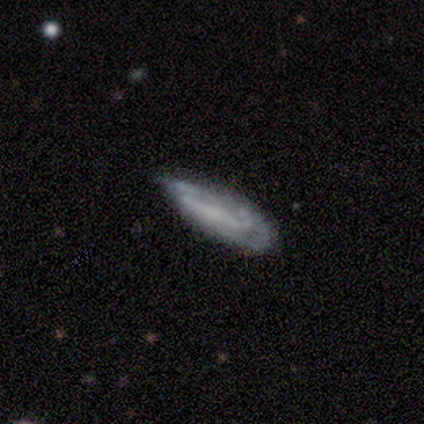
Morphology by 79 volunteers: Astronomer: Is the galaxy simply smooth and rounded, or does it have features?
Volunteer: featured or disk — 62%.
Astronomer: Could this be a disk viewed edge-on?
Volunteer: no — 76%.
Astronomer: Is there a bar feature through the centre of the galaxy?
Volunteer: no — 49% (runner-up: strong, 27%).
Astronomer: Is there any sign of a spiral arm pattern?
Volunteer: yes — 51% (runner-up: no, 49%).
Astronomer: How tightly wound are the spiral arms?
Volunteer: tight — 47% (runner-up: medium, 32%).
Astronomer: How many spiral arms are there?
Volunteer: can't tell — 53% (runner-up: 2, 32%).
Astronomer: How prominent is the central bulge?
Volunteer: none — 76%.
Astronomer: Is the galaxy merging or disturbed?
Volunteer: none — 22% (runner-up: minor disturbance, 21%).